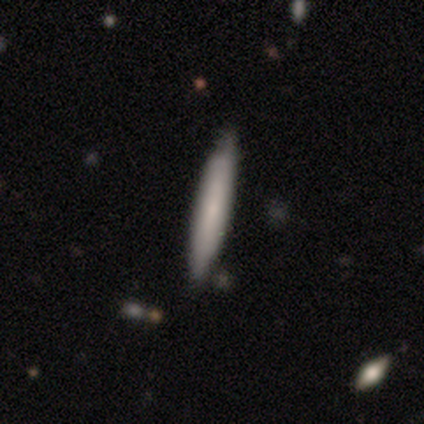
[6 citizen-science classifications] Overall: smooth (83%). How rounded: cigar-shaped (100%). Merging: none (100%).